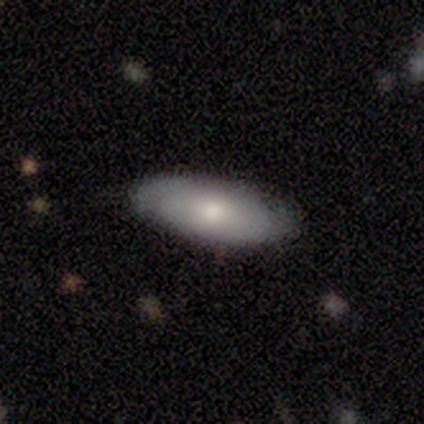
A smooth galaxy with no disk features (60%) that is in between round and cigar-shaped (100%).

Vote fractions:
- Smooth or featured? smooth: 60% / featured or disk: 40% / star or artifact: 0%
- How rounded? in between: 100% / round: 0% / cigar-shaped: 0%
- Merging? none: 40% (tied) / minor disturbance: 40% (tied) / major disturbance: 20% / merger: 0%